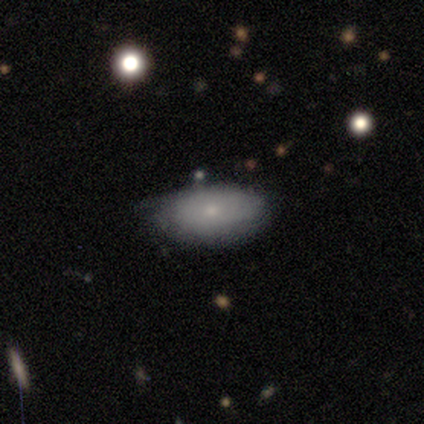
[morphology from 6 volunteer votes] A smooth galaxy with no disk features (50%) that is in between round and cigar-shaped (100%). Merging: none (60%).